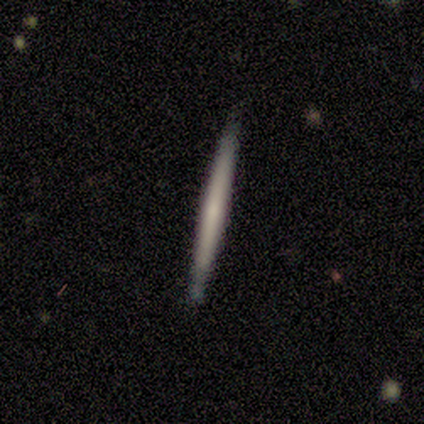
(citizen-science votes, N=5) This appears to be a featured or disk galaxy (80%) viewed edge-on (100%) with no central bulge (100%). Merging: none (100%).